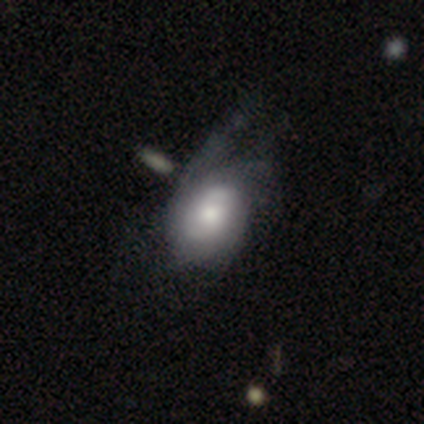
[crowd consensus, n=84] Smooth or featured? featured or disk (57%)
Edge-on disk? no (94%)
Bar? no (64%)
Spiral arms? yes (87%)
Spiral winding? tight (38%, tied with medium)
Spiral arm count? can't tell (51%)
Bulge size? moderate (47%)
Merging? major disturbance (46%)